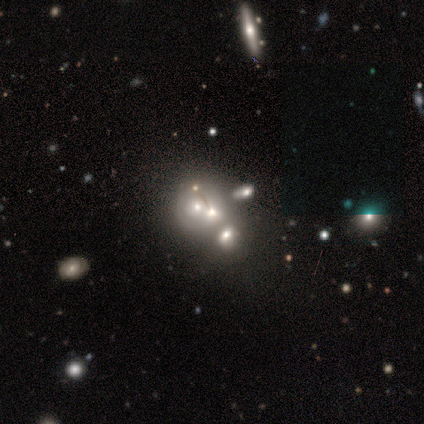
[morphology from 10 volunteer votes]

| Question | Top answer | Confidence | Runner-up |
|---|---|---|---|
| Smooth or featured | smooth | 70% | star or artifact (20%) |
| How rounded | round | 86% | in between (14%) |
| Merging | merger | 88% | none (12%) |